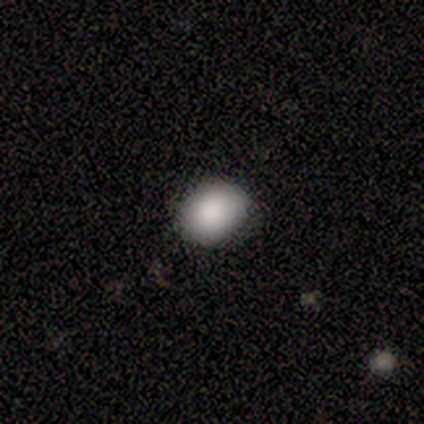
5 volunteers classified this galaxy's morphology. Smooth or featured? smooth (100%)
How rounded? in between (100%)
Merging? none (80%)